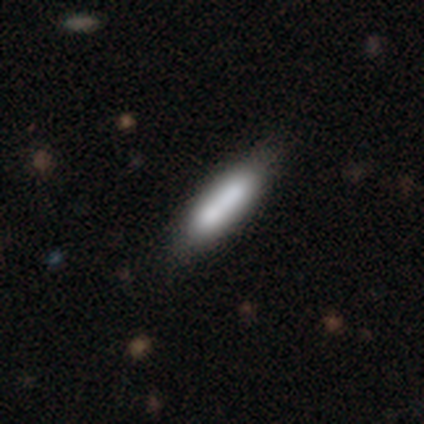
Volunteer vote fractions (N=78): A smooth galaxy with no disk features (79%) that is cigar-shaped (68%). Merging: none (37%).